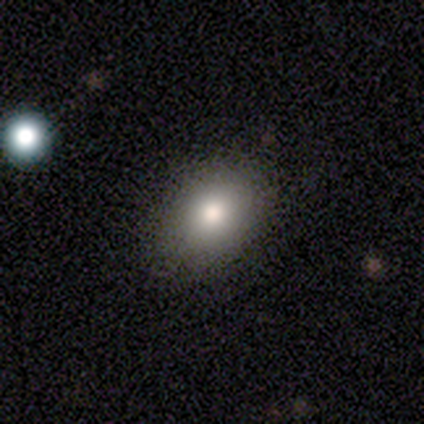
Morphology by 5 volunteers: Smooth or featured?
  - smooth: 80% *
  - featured or disk: 20%
  - star or artifact: 0%
How rounded?
  - in between: 100% *
  - round: 0%
  - cigar-shaped: 0%
Merging?
  - none: 100% *
  - minor disturbance: 0%
  - major disturbance: 0%
  - merger: 0%